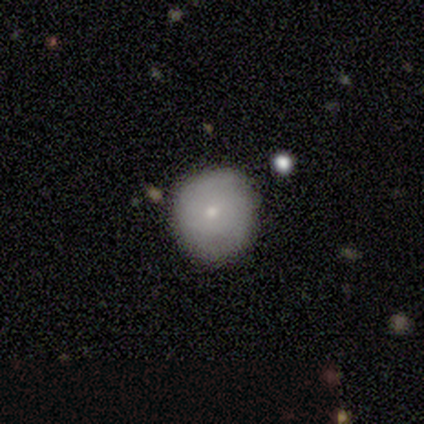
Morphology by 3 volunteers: Smooth or featured?
  - smooth: 67% *
  - featured or disk: 33%
  - star or artifact: 0%
How rounded?
  - round: 100% *
  - in between: 0%
  - cigar-shaped: 0%
Merging?
  - none: 33% * (tied)
  - minor disturbance: 33% * (tied)
  - major disturbance: 33% * (tied)
  - merger: 0%